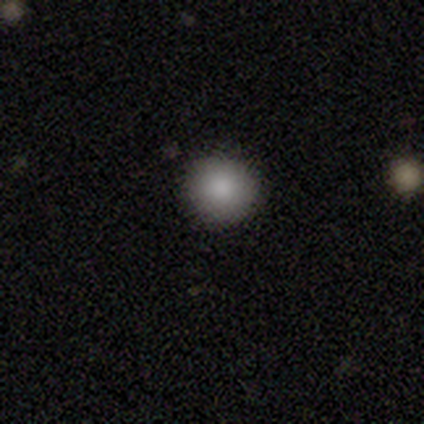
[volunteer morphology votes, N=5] Smooth or featured?
  - smooth: 100% *
  - featured or disk: 0%
  - star or artifact: 0%
How rounded?
  - round: 80% *
  - in between: 20%
  - cigar-shaped: 0%
Merging?
  - none: 100% *
  - minor disturbance: 0%
  - major disturbance: 0%
  - merger: 0%